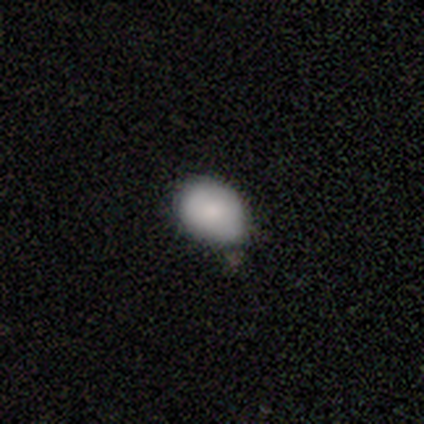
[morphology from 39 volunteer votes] This appears to be a smooth galaxy with no disk features (87%) that is in between round and cigar-shaped (79%). Merging: none (49%).